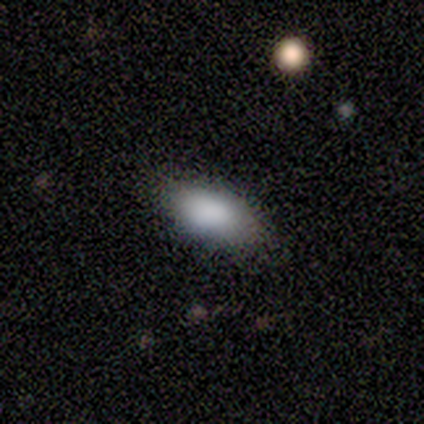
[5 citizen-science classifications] smooth 100%, featured or disk 0%, star or artifact 0%. Down the decision tree: how rounded — in between (100%); merging — none (80%).